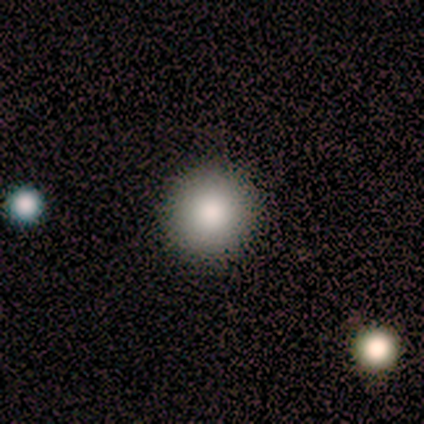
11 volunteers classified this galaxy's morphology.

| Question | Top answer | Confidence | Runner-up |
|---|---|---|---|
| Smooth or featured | smooth | 73% | star or artifact (18%) |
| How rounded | round | 100% | — |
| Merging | none | 100% | — |